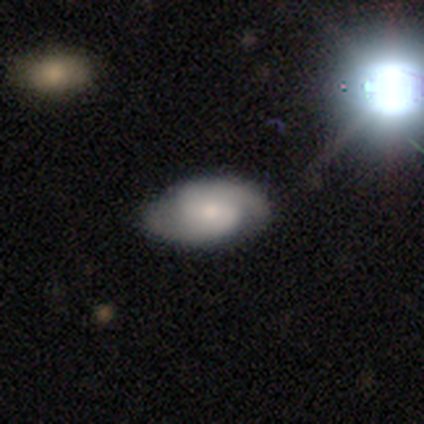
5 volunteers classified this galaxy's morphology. Smooth or featured?
  - featured or disk: 60% *
  - smooth: 40%
  - star or artifact: 0%
Edge-on disk?
  - no: 100% *
  - yes: 0%
Bar?
  - no: 67% *
  - weak: 33%
  - strong: 0%
Spiral arms?
  - yes: 100% *
  - no: 0%
Spiral winding?
  - medium: 67% *
  - loose: 33%
  - tight: 0%
Spiral arm count?
  - 2: 100% *
  - 1: 0%
  - 3: 0%
  - 4: 0%
  - more than 4: 0%
  - can't tell: 0%
Bulge size?
  - moderate: 67% *
  - none: 33%
  - dominant: 0%
  - large: 0%
  - small: 0%
Merging?
  - none: 80% *
  - major disturbance: 20%
  - minor disturbance: 0%
  - merger: 0%